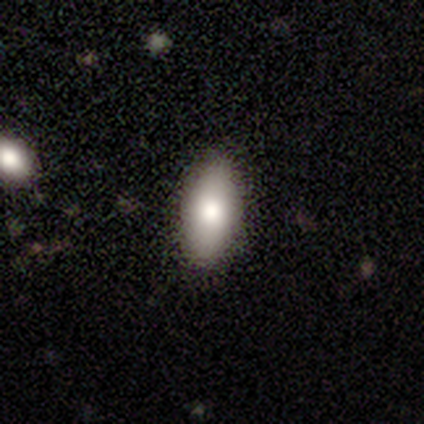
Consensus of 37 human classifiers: smooth 76%, featured or disk 14%, star or artifact 11%. Down the decision tree: how rounded — in between (93%); merging — none (79%).